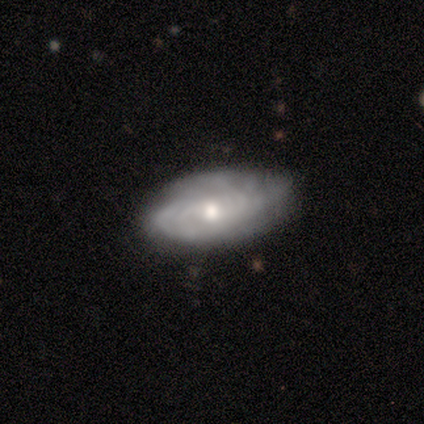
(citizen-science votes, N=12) featured or disk 92%, smooth 8%, star or artifact 0%. Down the decision tree: edge-on disk — no (91%); bar — no (90%); spiral arms — yes (90%); spiral arm count — can't tell (67%); spiral winding — medium (56%); bulge size — small (70%); merging — none (75%).